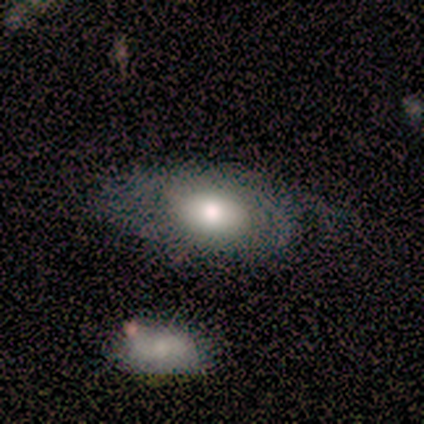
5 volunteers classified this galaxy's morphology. A smooth galaxy with no disk features (60%) that is in between round and cigar-shaped (100%).

Vote fractions:
- Smooth or featured? smooth: 60% / featured or disk: 20% / star or artifact: 20%
- How rounded? in between: 100% / round: 0% / cigar-shaped: 0%
- Merging? merger: 50% / none: 25% / minor disturbance: 25% / major disturbance: 0%